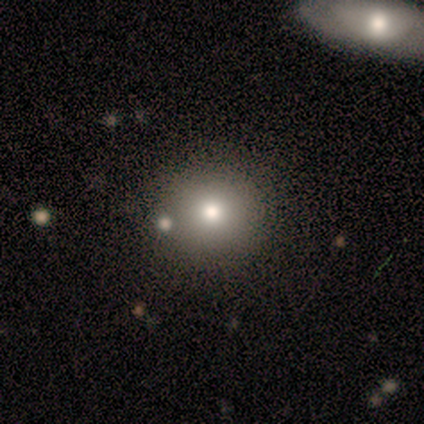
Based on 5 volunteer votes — Smooth or featured: smooth — 100%
How rounded: round — 100%
Merging: none — 80% (major disturbance — 20%)